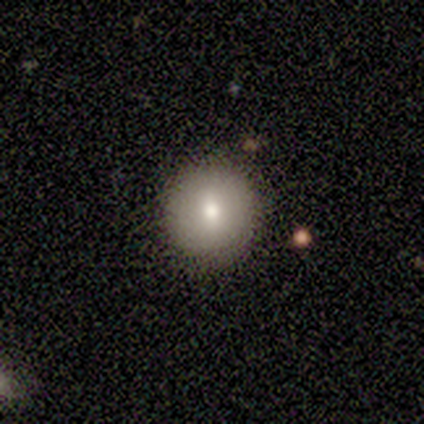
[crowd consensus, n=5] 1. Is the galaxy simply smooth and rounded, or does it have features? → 100% smooth, 0% featured or disk, 0% star or artifact.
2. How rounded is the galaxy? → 100% round, 0% in between, 0% cigar-shaped.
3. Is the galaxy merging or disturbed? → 100% none, 0% minor disturbance, 0% major disturbance, 0% merger.